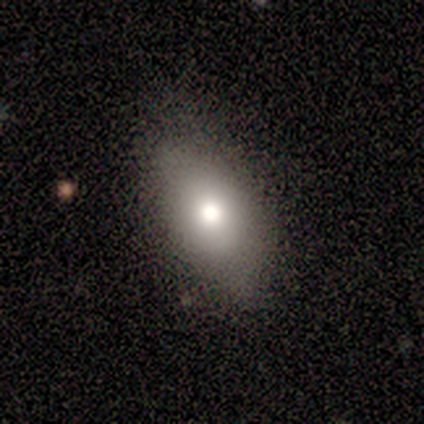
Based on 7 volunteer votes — Volunteers were most divided on "smooth or featured": smooth: 71%, featured or disk: 14%, star or artifact: 14%. More confident: how rounded — in between (100%); merging — none (83%).